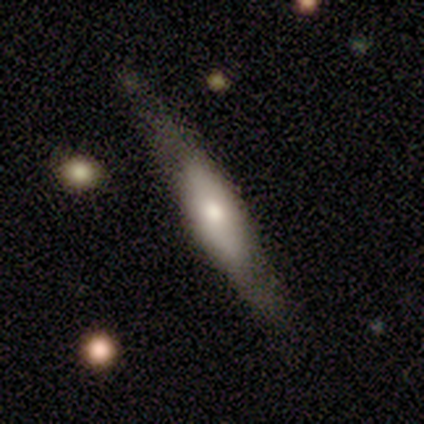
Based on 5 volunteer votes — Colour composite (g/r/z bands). It shows a smooth galaxy with no disk features (60%) that is in between round and cigar-shaped (67%). Merging: none (40%, tied with minor disturbance).